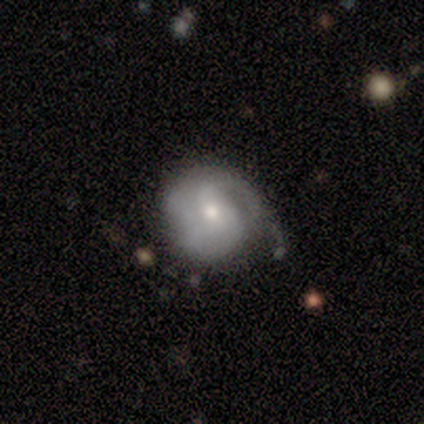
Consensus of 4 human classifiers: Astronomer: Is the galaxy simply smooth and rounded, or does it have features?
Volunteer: featured or disk — 100%.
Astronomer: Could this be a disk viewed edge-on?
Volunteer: no — 100%.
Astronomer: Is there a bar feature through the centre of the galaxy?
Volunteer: weak — 50%, tied with no at 50%.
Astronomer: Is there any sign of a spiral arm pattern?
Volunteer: yes — 100%.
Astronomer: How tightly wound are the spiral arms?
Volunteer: tight — 50%, tied with medium at 50%.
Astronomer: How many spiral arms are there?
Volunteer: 1 — 50%.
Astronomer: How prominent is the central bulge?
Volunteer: moderate — 50%, tied with small at 50%.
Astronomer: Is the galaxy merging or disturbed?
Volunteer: none — 75%.